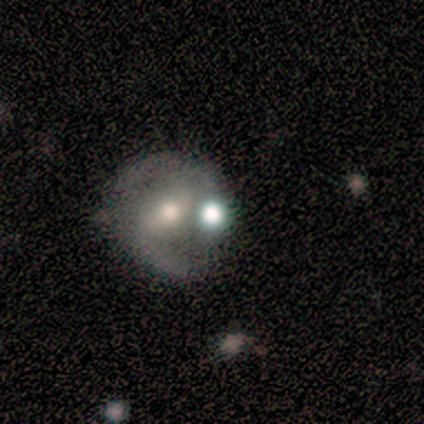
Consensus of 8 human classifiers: A featured or disk galaxy (88%) with a weak bar (43%, tied with no), 2 (86%) medium (100%) spiral arms (100%) and a moderate central bulge (86%).

Vote fractions:
- Smooth or featured? featured or disk: 88% / star or artifact: 12% / smooth: 0%
- Edge-on disk? no: 100% / yes: 0%
- Bar? weak: 43% (tied) / no: 43% (tied) / strong: 14%
- Spiral arms? yes: 100% / no: 0%
- Spiral winding? medium: 100% / tight: 0% / loose: 0%
- Spiral arm count? 2: 86% / can't tell: 14% / 1: 0% / 3: 0% / 4: 0% / more than 4: 0%
- Bulge size? moderate: 86% / small: 14% / dominant: 0% / large: 0% / none: 0%
- Merging? none: 71% / minor disturbance: 29% / major disturbance: 0% / merger: 0%